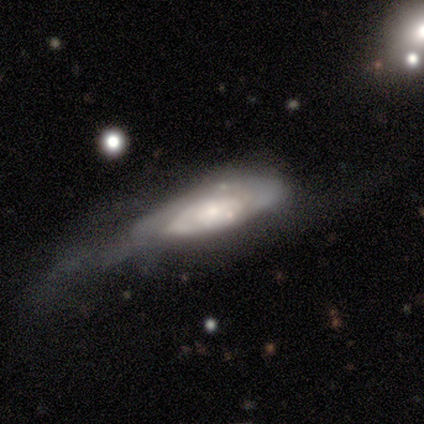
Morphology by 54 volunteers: type=featured or disk (70%); edge-on=no (92%); bar=no (80%); spiral arms=yes (69%); winding=tight (75%); arm count=can't tell (54%); bulge=small (54%); merging=major disturbance (53%).